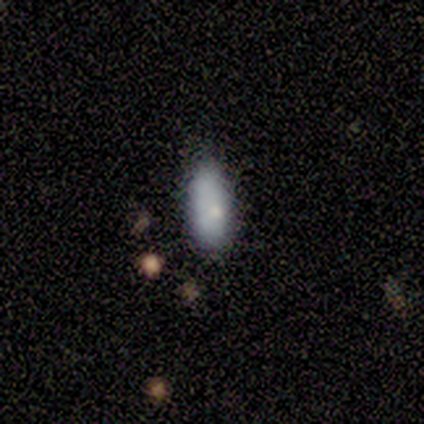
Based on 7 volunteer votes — Q: Smooth or featured?
A: smooth (100%)
Q: How rounded?
A: in between (71%); runner-up: cigar-shaped (29%)
Q: Merging?
A: none (86%); runner-up: major disturbance (14%)